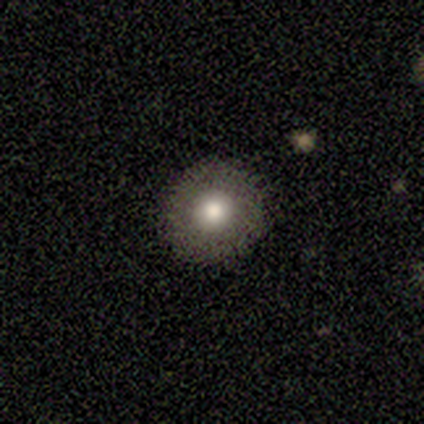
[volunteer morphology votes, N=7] This is likely a smooth galaxy (71%). How rounded: clearly round (100%). Merging: clearly none (86%).